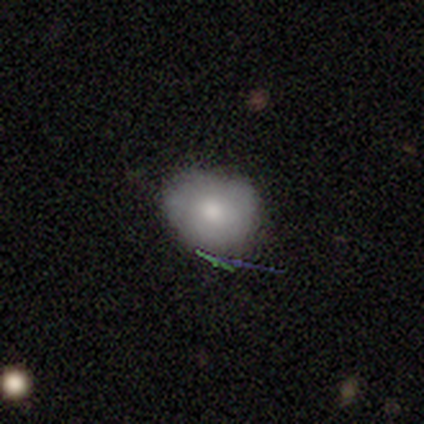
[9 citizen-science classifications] Smooth or featured: smooth — 56% (featured or disk — 33%)
How rounded: round — 60% (in between — 40%)
Merging: none — 62% (minor disturbance — 38%)